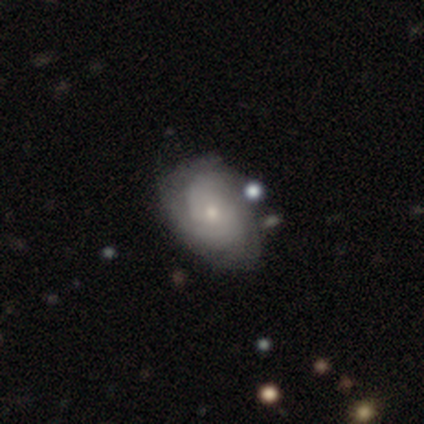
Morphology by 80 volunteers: smooth-or-featured: featured or disk: 69% | smooth: 26% | star or artifact: 5%
  disk-edge-on: no: 100% | yes: 0%
    bar: no: 89% | weak: 11% | strong: 0%
    has-spiral-arms: yes: 93% | no: 7%
      spiral-winding: tight: 63% | medium: 29% | loose: 8%
      spiral-arm-count: can't tell: 59% | 2: 31% | 3: 8% | 1: 2% | 4: 0% | more than 4: 0%
    bulge-size: small: 71% | moderate: 22% | none: 4% | dominant: 2% | large: 2%
  merging: none: 29% | minor disturbance: 16% | merger: 7% | major disturbance: 5%